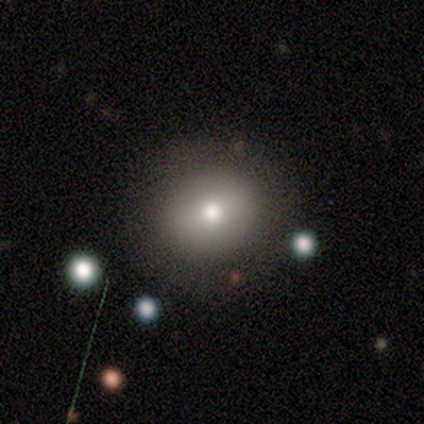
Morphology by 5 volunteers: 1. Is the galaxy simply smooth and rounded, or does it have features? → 40% smooth (tied), 40% star or artifact (tied), 20% featured or disk.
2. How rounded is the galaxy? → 100% round, 0% in between, 0% cigar-shaped.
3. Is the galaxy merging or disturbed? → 67% none, 33% minor disturbance, 0% major disturbance, 0% merger.